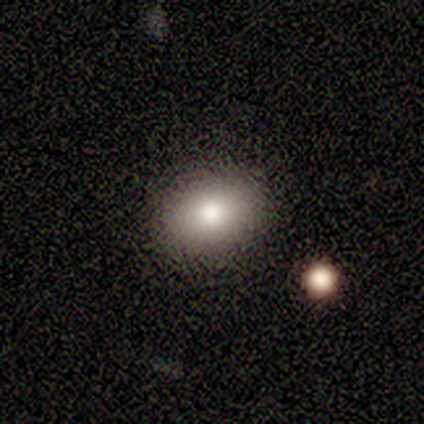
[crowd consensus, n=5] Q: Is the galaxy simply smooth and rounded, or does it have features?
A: smooth — 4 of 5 (80%).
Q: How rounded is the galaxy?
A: round — 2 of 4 (50%, tied with in between).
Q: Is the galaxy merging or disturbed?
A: none — 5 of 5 (100%).